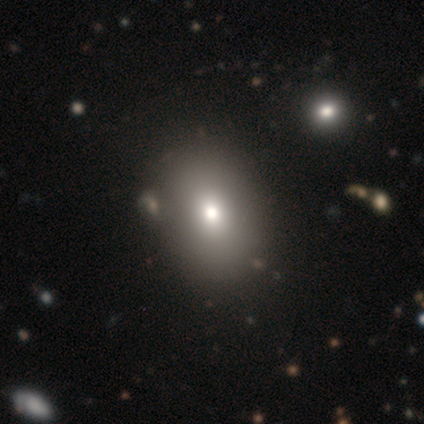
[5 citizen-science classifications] A smooth galaxy with no disk features (100%) that is in between round and cigar-shaped (60%). Merging: none (100%).